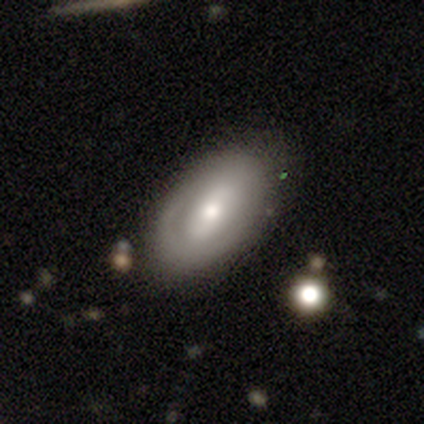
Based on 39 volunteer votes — A featured or disk galaxy (51%) with a strong bar (37%, tied with weak), no spiral arms (74%) and a moderate central bulge (58%). Merging: none (76%).